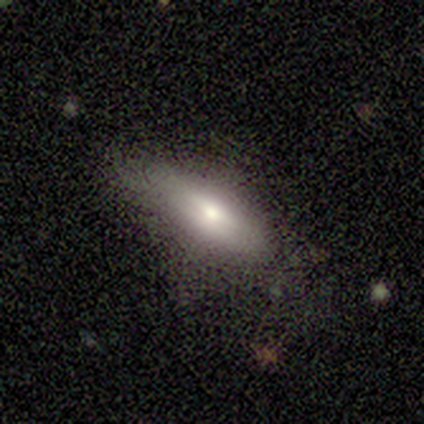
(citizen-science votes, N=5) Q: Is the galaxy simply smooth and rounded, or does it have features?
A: featured or disk — 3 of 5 (60%).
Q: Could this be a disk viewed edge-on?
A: no — 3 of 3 (100%).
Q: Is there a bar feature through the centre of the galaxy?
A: strong — 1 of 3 (33%, tied with weak and no).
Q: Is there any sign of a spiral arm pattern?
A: no — 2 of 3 (67%).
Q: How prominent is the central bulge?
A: small — 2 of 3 (67%).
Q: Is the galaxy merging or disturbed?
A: none — 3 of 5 (60%).